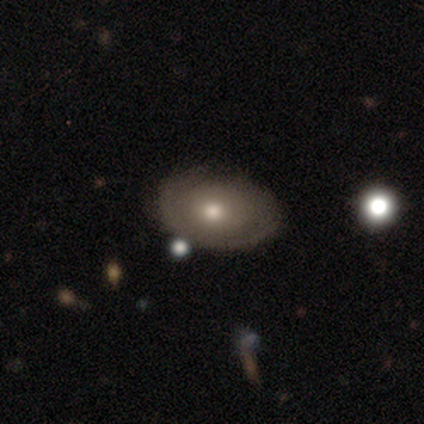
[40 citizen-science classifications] Smooth or featured? 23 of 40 (57%) said smooth. How rounded? 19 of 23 (83%) said in between. Merging? 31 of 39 (79%) said none.